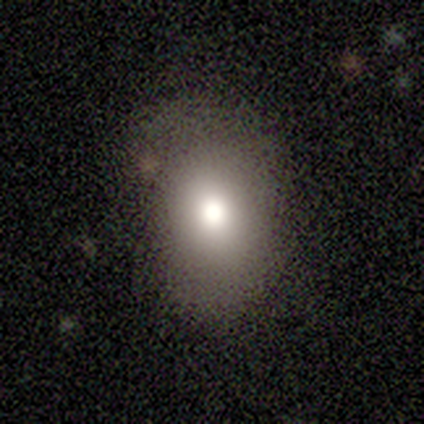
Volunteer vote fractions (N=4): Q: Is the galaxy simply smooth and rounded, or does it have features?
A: smooth — 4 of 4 (100%).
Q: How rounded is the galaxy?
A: in between — 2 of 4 (50%).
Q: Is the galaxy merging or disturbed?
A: none — 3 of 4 (75%).